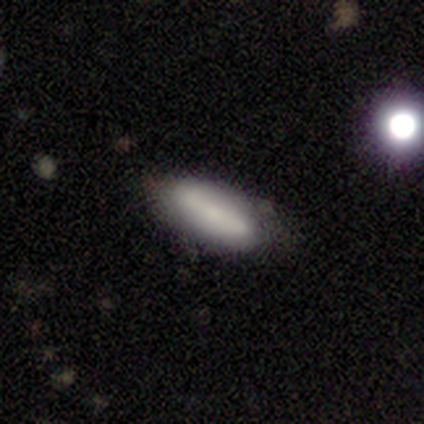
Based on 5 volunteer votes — Volunteers were most divided on "how rounded": in between: 60%, cigar-shaped: 40%, round: 0%. More confident: smooth or featured — smooth (100%); merging — none (80%).